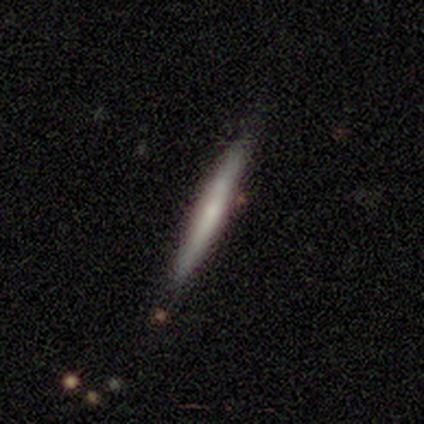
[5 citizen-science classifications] smooth_or_featured: smooth (p=0.60) [alt: featured or disk p=0.40]
how_rounded: cigar-shaped (p=1.00)
merging: none (p=1.00)